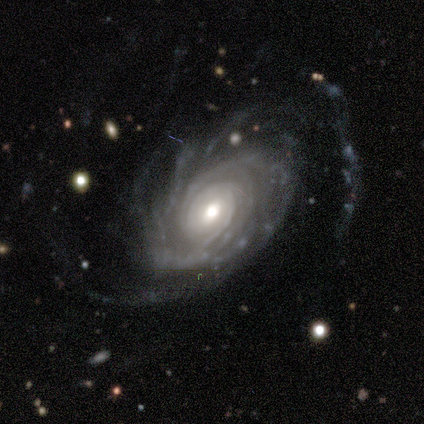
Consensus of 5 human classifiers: Smooth or featured?
  - featured or disk: 100% *
  - smooth: 0%
  - star or artifact: 0%
Edge-on disk?
  - no: 100% *
  - yes: 0%
Bar?
  - no: 80% *
  - weak: 20%
  - strong: 0%
Spiral arms?
  - yes: 100% *
  - no: 0%
Spiral winding?
  - tight: 60% *
  - medium: 40%
  - loose: 0%
Spiral arm count?
  - can't tell: 60% *
  - more than 4: 40%
  - 1: 0%
  - 2: 0%
  - 3: 0%
  - 4: 0%
Bulge size?
  - moderate: 100% *
  - dominant: 0%
  - large: 0%
  - small: 0%
  - none: 0%
Merging?
  - none: 60% *
  - minor disturbance: 20%
  - major disturbance: 20%
  - merger: 0%